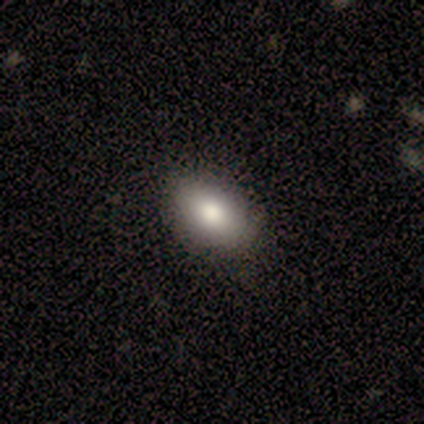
Smooth or featured: smooth — 100%
How rounded: in between — 80% (round — 20%)
Merging: none — 60% (minor disturbance — 40%)